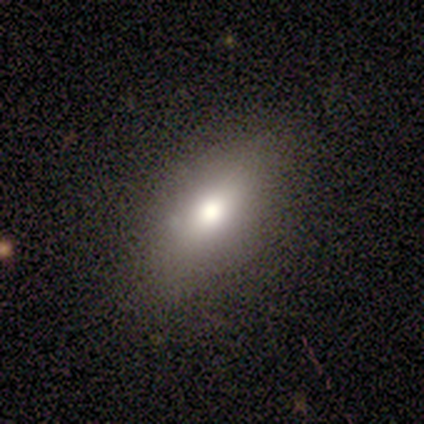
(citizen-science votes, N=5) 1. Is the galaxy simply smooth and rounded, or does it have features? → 100% smooth, 0% featured or disk, 0% star or artifact.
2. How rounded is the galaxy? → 80% in between, 20% round, 0% cigar-shaped.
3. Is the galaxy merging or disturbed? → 100% none, 0% minor disturbance, 0% major disturbance, 0% merger.